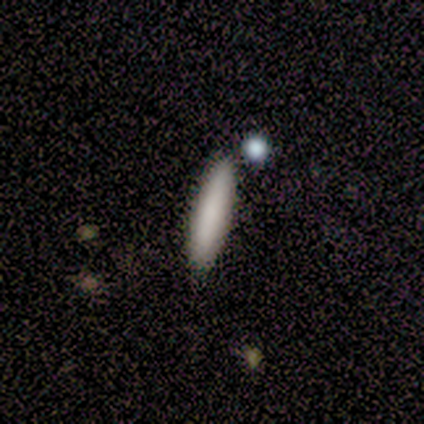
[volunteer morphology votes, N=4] Smooth or featured: smooth — 75% (featured or disk — 25%)
How rounded: cigar-shaped — 100%
Merging: none — 75% (minor disturbance — 25%)